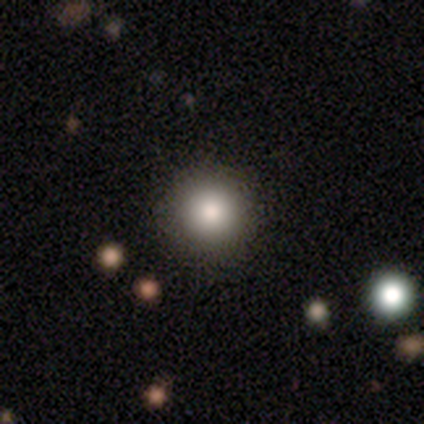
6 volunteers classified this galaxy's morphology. smooth 50%, featured or disk 33%, star or artifact 17%. Down the decision tree: how rounded — round (100%); merging — none (80%).